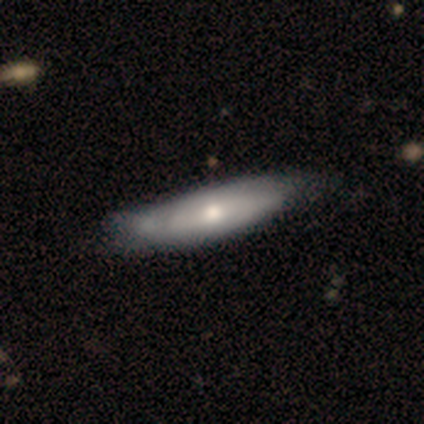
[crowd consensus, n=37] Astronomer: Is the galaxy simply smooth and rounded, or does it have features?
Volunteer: smooth — 65%.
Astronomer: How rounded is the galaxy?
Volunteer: in between — 71%.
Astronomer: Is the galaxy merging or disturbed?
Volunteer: none — 30% (runner-up: minor disturbance, 16%).